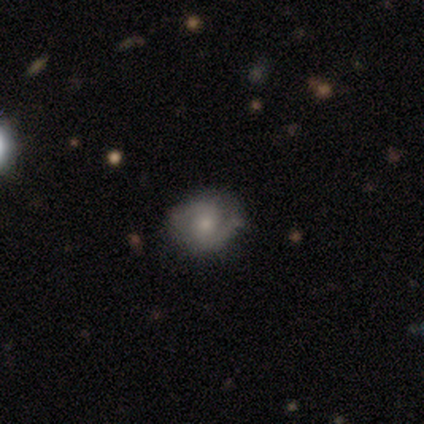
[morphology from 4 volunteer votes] Smooth or featured? 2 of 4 (50%, tied with featured or disk) said smooth. How rounded? 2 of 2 (100%) said in between. Merging? 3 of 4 (75%) said none.